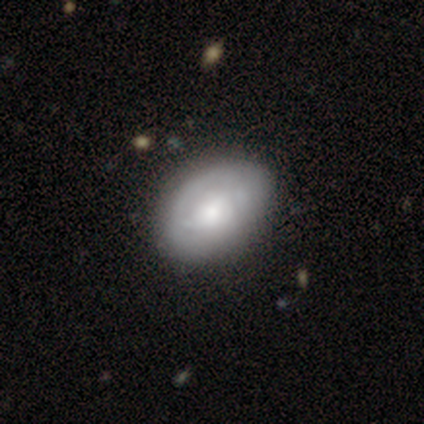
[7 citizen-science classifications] Volunteers were most divided on "merging": none: 50%, minor disturbance: 33%, major disturbance: 17%, merger: 0%. More confident: how rounded — in between (75%); smooth or featured — smooth (57%).